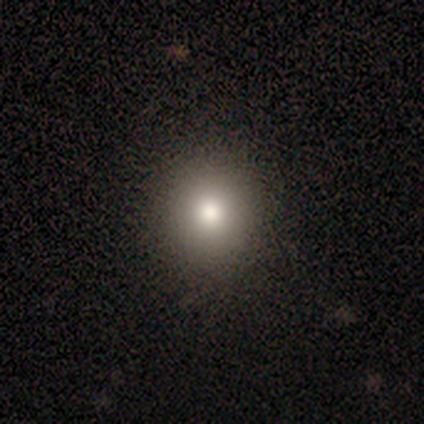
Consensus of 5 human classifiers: Morphology: type=smooth (60%); roundness=round (67%); merging=minor disturbance (67%).